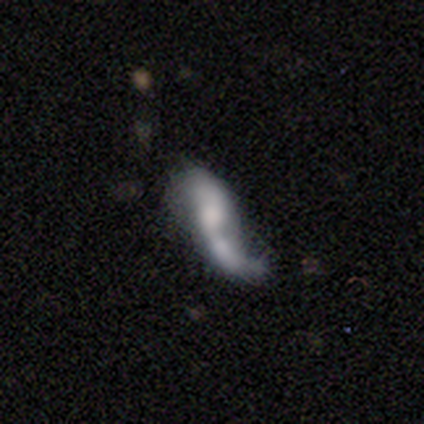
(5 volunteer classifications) Volunteers were most divided on "smooth or featured" (2-way tie): smooth: 40%, featured or disk: 40%, star or artifact: 20%; "how rounded" (2-way tie): round: 50%, in between: 50%, cigar-shaped: 0%; "merging" (2-way tie): none: 50%, major disturbance: 50%, minor disturbance: 0%, merger: 0%.